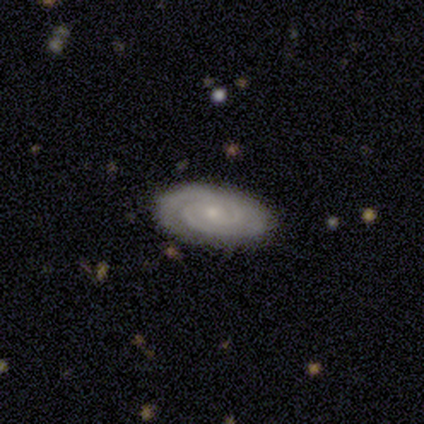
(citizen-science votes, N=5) Smooth or featured: featured or disk — 80% (smooth — 20%)
Edge-on disk: no — 100%
Bar: weak — 50% (tied with no — 50%)
Spiral arms: yes — 100%
Spiral winding: tight — 75% (medium — 25%)
Spiral arm count: 2 — 50% (tied with 3 — 50%)
Bulge size: small — 75% (moderate — 25%)
Merging: none — 80% (minor disturbance — 20%)